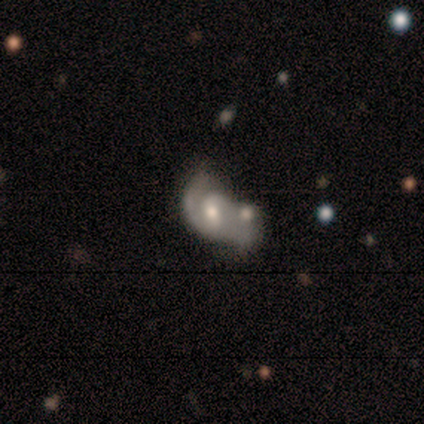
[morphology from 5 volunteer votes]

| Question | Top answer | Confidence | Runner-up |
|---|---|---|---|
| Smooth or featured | featured or disk | 80% | smooth (20%) |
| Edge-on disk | no | 100% | — |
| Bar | weak | 50% | tied: no (50%) |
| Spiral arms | yes | 100% | — |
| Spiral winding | medium | 75% | loose (25%) |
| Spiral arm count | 1 | 50% | 2 (25%) |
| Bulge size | moderate | 50% | tied: small (50%) |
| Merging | none | 60% | minor disturbance (20%) |